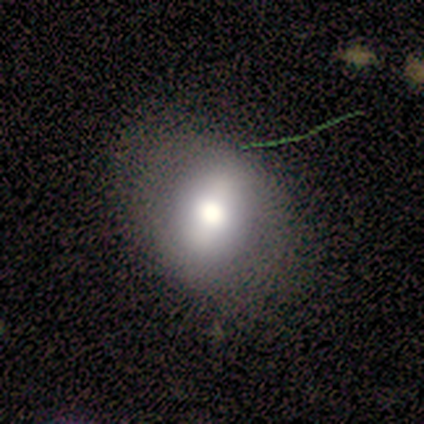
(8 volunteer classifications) A smooth galaxy with no disk features (88%) that is in between round and cigar-shaped (86%).

Vote fractions:
- Smooth or featured? smooth: 88% / featured or disk: 12% / star or artifact: 0%
- How rounded? in between: 86% / round: 14% / cigar-shaped: 0%
- Merging? none: 100% / minor disturbance: 0% / major disturbance: 0% / merger: 0%